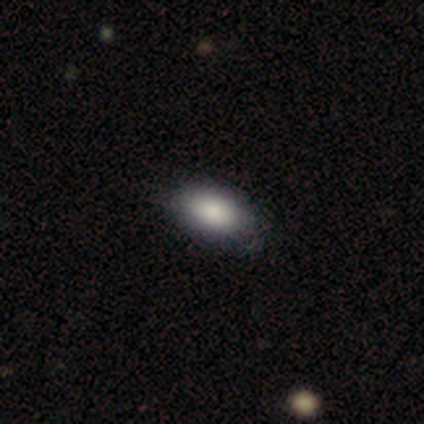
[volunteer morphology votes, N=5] This appears to be a smooth galaxy with no disk features (100%) that is in between round and cigar-shaped (80%). Merging: none (100%).